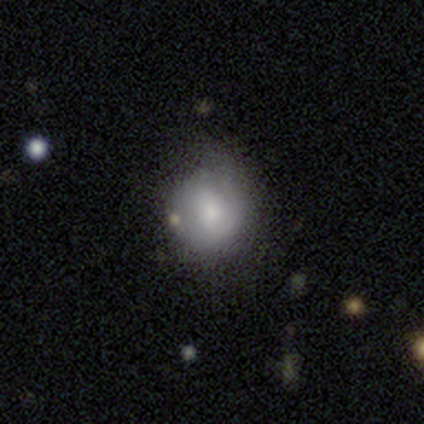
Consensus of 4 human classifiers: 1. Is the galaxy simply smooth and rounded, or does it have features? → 75% featured or disk, 25% smooth, 0% star or artifact.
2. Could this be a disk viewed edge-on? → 100% no, 0% yes.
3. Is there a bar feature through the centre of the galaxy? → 67% no, 33% weak, 0% strong.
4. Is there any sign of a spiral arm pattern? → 67% yes, 33% no.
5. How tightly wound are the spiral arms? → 100% medium, 0% tight, 0% loose.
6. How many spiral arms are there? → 100% 2, 0% 1, 0% 3, 0% 4, 0% more than 4, 0% can't tell.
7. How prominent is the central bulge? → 67% small, 33% moderate, 0% dominant, 0% large, 0% none.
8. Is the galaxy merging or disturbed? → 50% none (tied), 50% minor disturbance (tied), 0% major disturbance, 0% merger.